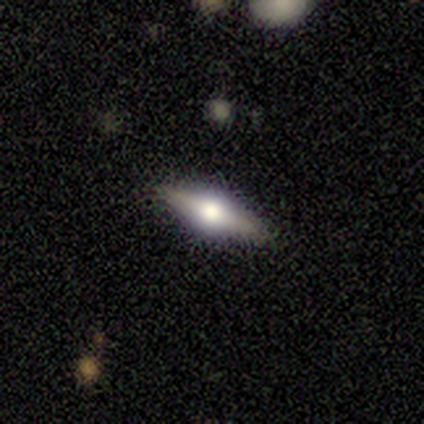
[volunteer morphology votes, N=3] Smooth or featured?
  - smooth: 33% * (tied)
  - featured or disk: 33% * (tied)
  - star or artifact: 33% * (tied)
How rounded?
  - cigar-shaped: 100% *
  - round: 0%
  - in between: 0%
Merging?
  - none: 100% *
  - minor disturbance: 0%
  - major disturbance: 0%
  - merger: 0%